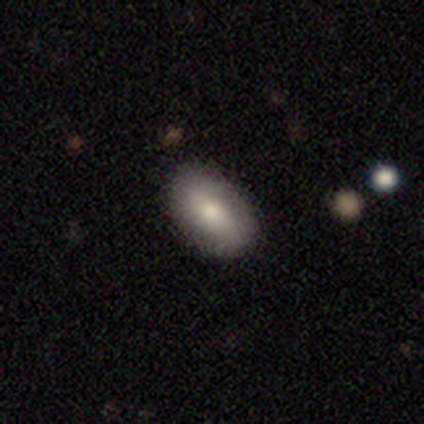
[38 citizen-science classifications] Q: Smooth or featured?
A: smooth (79%); runner-up: featured or disk (16%)
Q: How rounded?
A: in between (100%)
Q: Merging?
A: none (92%); runner-up: minor disturbance (6%)